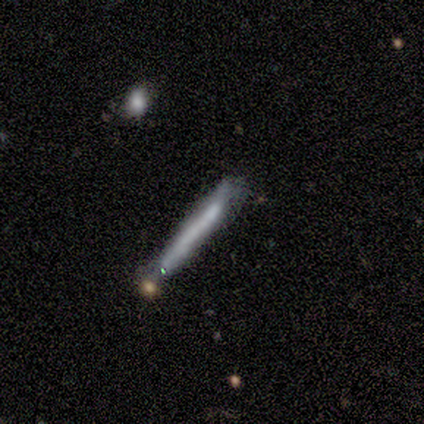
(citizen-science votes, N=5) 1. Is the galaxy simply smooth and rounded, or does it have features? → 80% smooth, 20% featured or disk, 0% star or artifact.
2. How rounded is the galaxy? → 100% cigar-shaped, 0% round, 0% in between.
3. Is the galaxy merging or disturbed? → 100% none, 0% minor disturbance, 0% major disturbance, 0% merger.